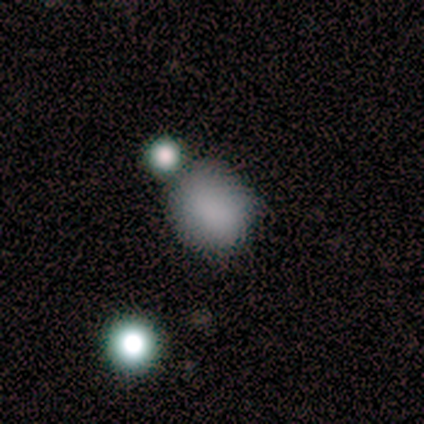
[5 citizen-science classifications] smooth 80%, star or artifact 20%, featured or disk 0%. Down the decision tree: how rounded — round (50%, tied with in between); merging — none (75%).